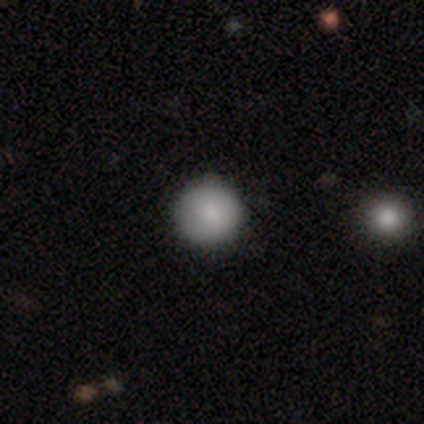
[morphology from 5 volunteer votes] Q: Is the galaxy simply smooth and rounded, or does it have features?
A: smooth — 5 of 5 (100%).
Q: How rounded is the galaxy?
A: round — 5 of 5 (100%).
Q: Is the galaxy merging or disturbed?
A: none — 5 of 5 (100%).